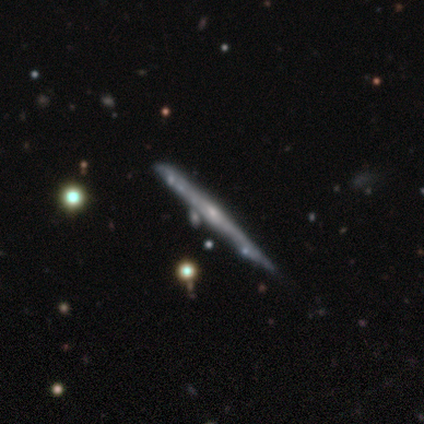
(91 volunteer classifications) A featured or disk galaxy (78%) viewed edge-on (96%) with no central bulge (57%).

Vote fractions:
- Smooth or featured? featured or disk: 78% / smooth: 16% / star or artifact: 5%
- Edge-on disk? yes: 96% / no: 4%
- Edge-on bulge? none: 57% / rounded: 41% / boxy: 1%
- Merging? none: 72% / minor disturbance: 17% / merger: 6% / major disturbance: 5%